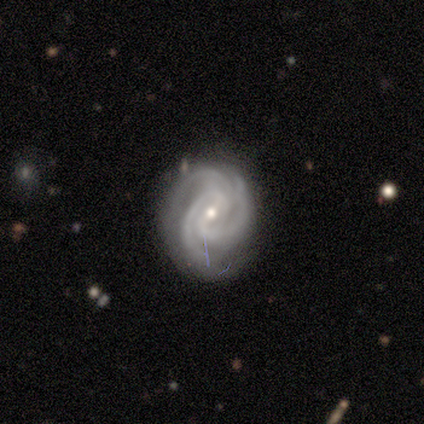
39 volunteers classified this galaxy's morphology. smooth-or-featured: featured or disk: 92% | smooth: 5% | star or artifact: 3%
  disk-edge-on: no: 97% | yes: 3%
    bar: weak: 66% | no: 23% | strong: 11%
    has-spiral-arms: yes: 100% | no: 0%
      spiral-winding: tight: 57% | medium: 37% | loose: 6%
      spiral-arm-count: 3: 69% | 2: 26% | 4: 6% | 1: 0% | more than 4: 0% | can't tell: 0%
    bulge-size: small: 51% | moderate: 49% | dominant: 0% | large: 0% | none: 0%
  merging: none: 76% | minor disturbance: 21% | major disturbance: 3% | merger: 0%